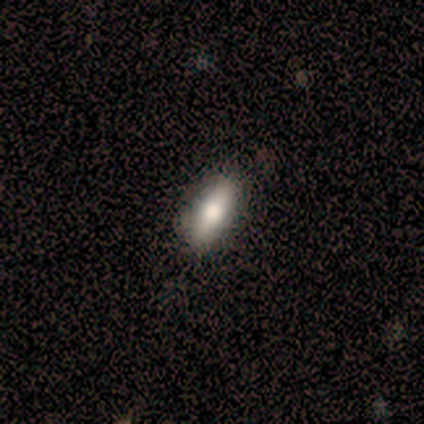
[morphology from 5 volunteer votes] smooth 60%, featured or disk 20%, star or artifact 20%. Down the decision tree: how rounded — in between (67%); merging — none (75%).